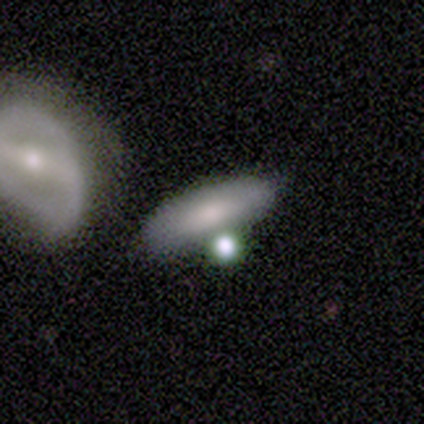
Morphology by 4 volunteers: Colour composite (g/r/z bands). It shows a smooth galaxy with no disk features (75%) that is cigar-shaped (67%). Merging: none (33%, tied with minor disturbance and major disturbance).